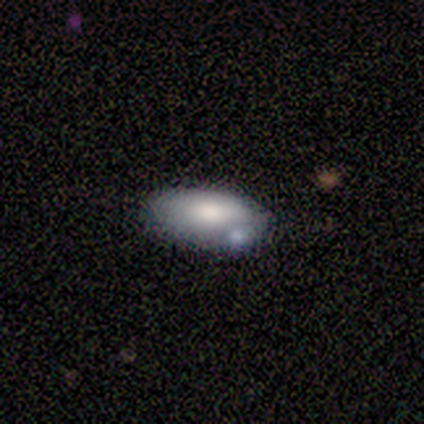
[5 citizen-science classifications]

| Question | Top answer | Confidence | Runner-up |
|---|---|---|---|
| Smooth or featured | smooth | 100% | — |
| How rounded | in between | 100% | — |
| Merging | none | 40% | tied: minor disturbance (40%) |